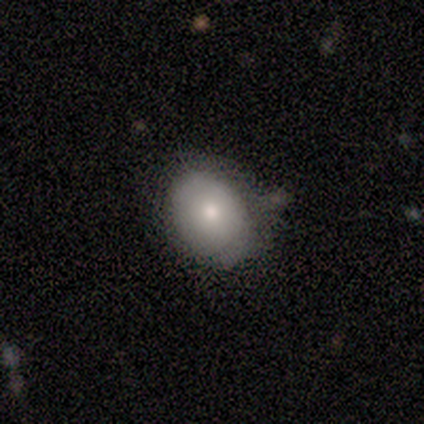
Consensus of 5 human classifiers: A smooth galaxy with no disk features (60%) that is in between round and cigar-shaped (100%).

Vote fractions:
- Smooth or featured? smooth: 60% / featured or disk: 40% / star or artifact: 0%
- How rounded? in between: 100% / round: 0% / cigar-shaped: 0%
- Merging? minor disturbance: 60% / none: 40% / major disturbance: 0% / merger: 0%